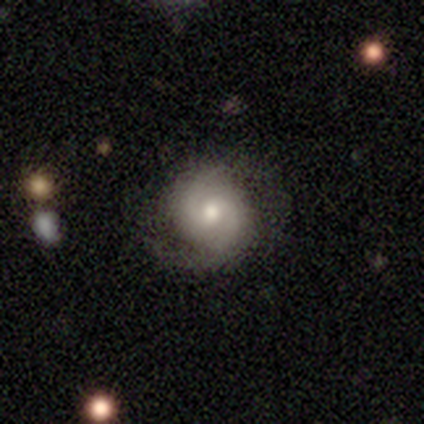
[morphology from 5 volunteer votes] smooth_or_featured: featured or disk (p=0.60) [alt: smooth p=0.40]
disk_edge_on: no (p=1.00)
bar: weak (p=0.67) [alt: no p=0.33]
has_spiral_arms: yes (p=0.67) [alt: no p=0.33]
spiral_winding: medium (p=0.50) [tied with: loose p=0.50]
spiral_arm_count: 2 (p=1.00)
bulge_size: small (p=0.67) [alt: moderate p=0.33]
merging: none (p=0.60) [alt: minor disturbance p=0.40]